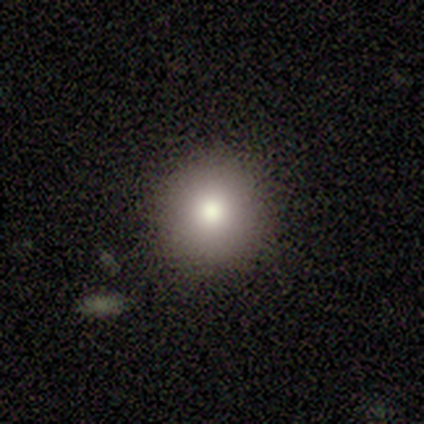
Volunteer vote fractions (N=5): smooth_or_featured: smooth (p=0.80) [alt: featured or disk p=0.20]
how_rounded: round (p=1.00)
merging: none (p=1.00)